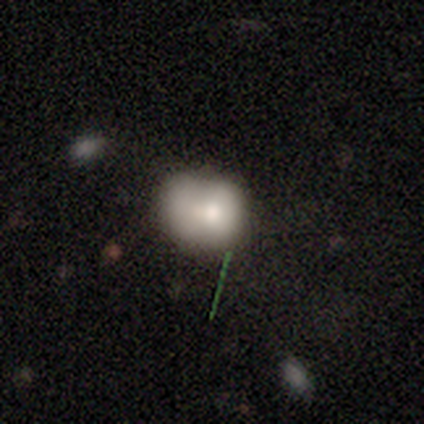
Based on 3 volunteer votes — Morphology: type=smooth (67%); roundness=in between (100%); merging=major disturbance (67%).